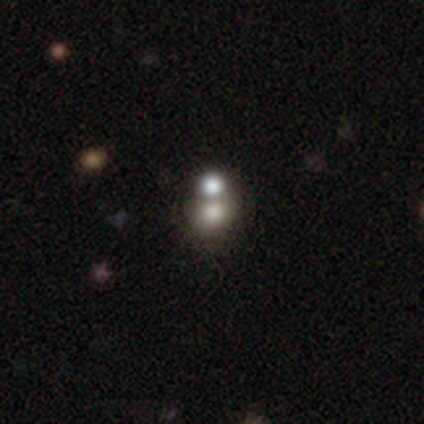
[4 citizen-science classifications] This is likely a smooth galaxy (75%). How rounded: likely round (67%). Merging: likely merger (67%).